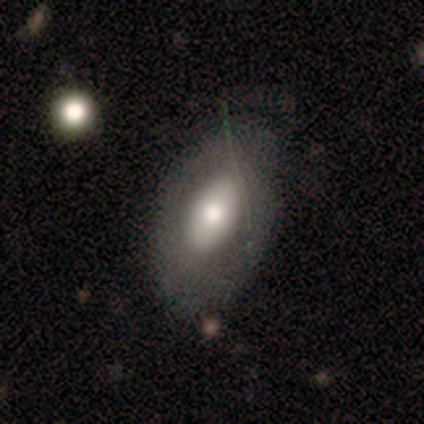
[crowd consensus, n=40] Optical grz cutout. It shows a smooth galaxy with no disk features (62%) that is in between round and cigar-shaped (100%). Merging: none (57%).